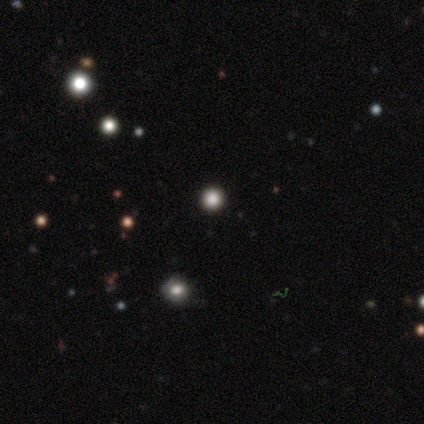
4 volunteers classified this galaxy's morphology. Volunteers were most divided on "smooth or featured": star or artifact: 75%, smooth: 25%, featured or disk: 0%.